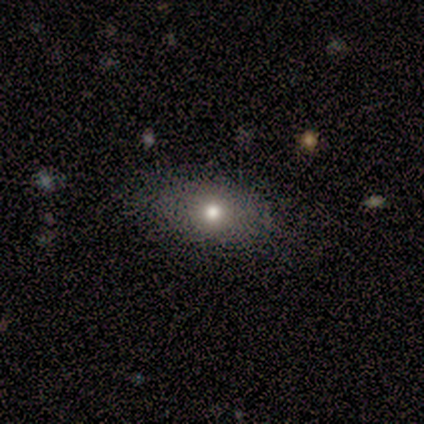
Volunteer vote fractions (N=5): Smooth or featured? smooth (80%)
How rounded? in between (100%)
Merging? none (75%)